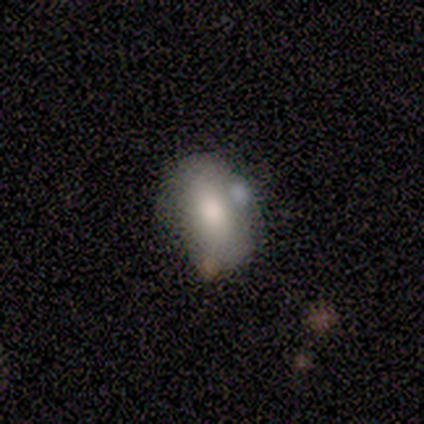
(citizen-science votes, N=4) Q: Smooth or featured?
A: smooth (75%); runner-up: featured or disk (25%)
Q: How rounded?
A: in between (100%)
Q: Merging?
A: none (50%); tied with: minor disturbance (50%)